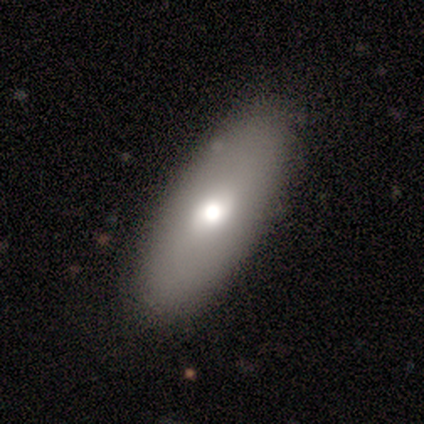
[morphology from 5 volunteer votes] smooth 60%, featured or disk 20%, star or artifact 20%. Down the decision tree: how rounded — in between (100%); merging — none (100%).